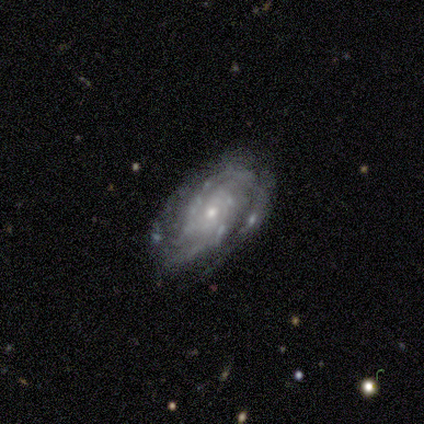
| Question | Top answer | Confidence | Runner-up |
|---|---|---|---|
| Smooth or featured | featured or disk | 100% | — |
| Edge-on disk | no | 80% | yes (20%) |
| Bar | no | 100% | — |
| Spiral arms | yes | 100% | — |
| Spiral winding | tight | 75% | medium (25%) |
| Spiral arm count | can't tell | 50% | 2 (25%) |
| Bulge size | small | 75% | moderate (25%) |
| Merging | none | 60% | minor disturbance (40%) |